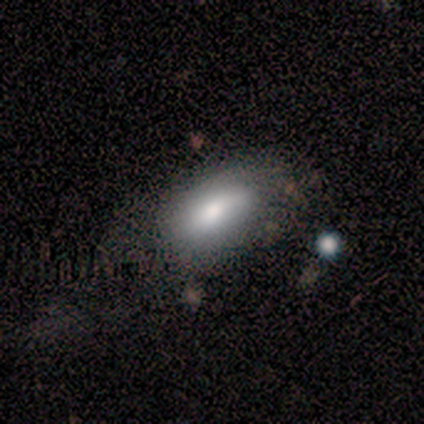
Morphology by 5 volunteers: Q: Smooth or featured?
A: smooth (60%); runner-up: featured or disk (40%)
Q: How rounded?
A: in between (100%)
Q: Merging?
A: none (60%); runner-up: minor disturbance (20%)